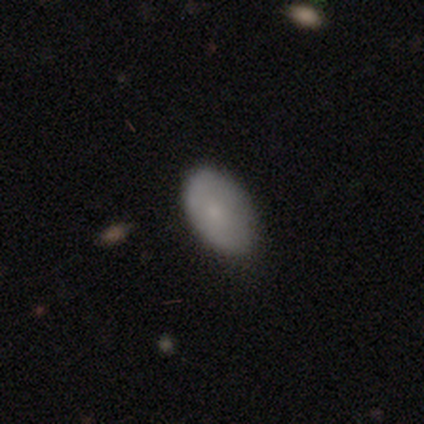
Smooth or featured? smooth (74%)
How rounded? in between (92%)
Merging? none (62%)